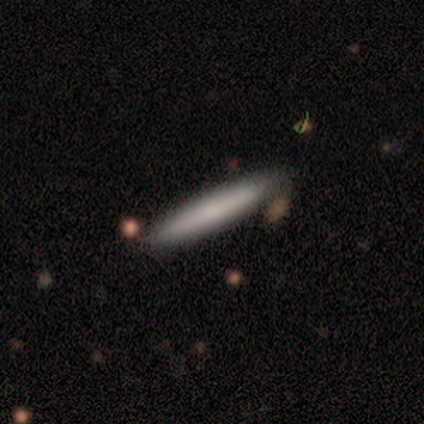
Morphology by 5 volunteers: Smooth or featured?
  - smooth: 60% *
  - featured or disk: 40%
  - star or artifact: 0%
How rounded?
  - cigar-shaped: 100% *
  - round: 0%
  - in between: 0%
Merging?
  - none: 60% *
  - minor disturbance: 40%
  - major disturbance: 0%
  - merger: 0%